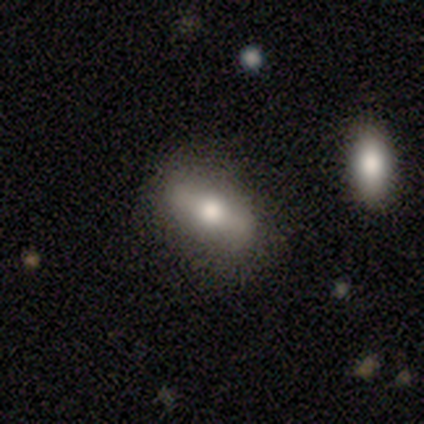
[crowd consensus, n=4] smooth 50% (tied), featured or disk 50% (tied), star or artifact 0%. Down the decision tree: how rounded — in between (50%, tied with cigar-shaped); merging — none (100%).